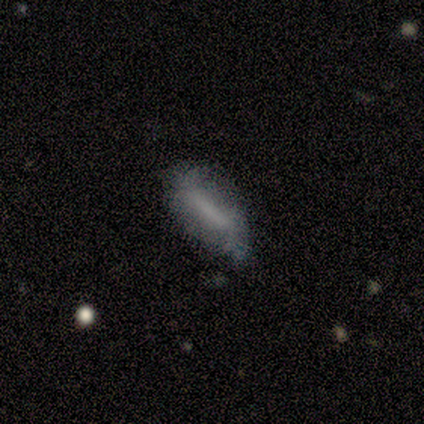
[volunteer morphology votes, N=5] A featured or disk galaxy (60%) viewed edge-on (100%) with a boxy central bulge (67%). Merging: none (60%).